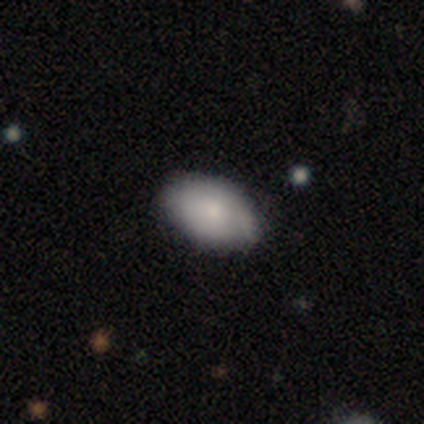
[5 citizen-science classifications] smooth-or-featured: smooth: 80% | star or artifact: 20% | featured or disk: 0%
  how-rounded: in between: 100% | round: 0% | cigar-shaped: 0%
  merging: none: 50% (tied) | minor disturbance: 50% (tied) | major disturbance: 0% | merger: 0%